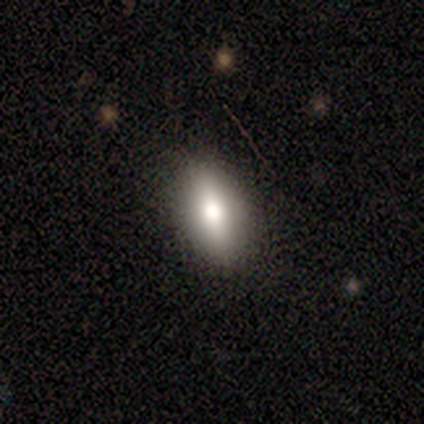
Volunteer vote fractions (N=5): smooth_or_featured: featured or disk (p=0.60) [alt: smooth p=0.40]
disk_edge_on: yes (p=0.67) [alt: no p=0.33]
edge_on_bulge: rounded (p=1.00)
merging: none (p=0.60) [alt: minor disturbance p=0.40]